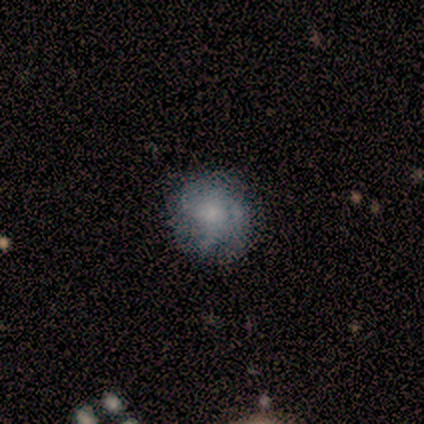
This appears to be a smooth galaxy with no disk features (40%, tied with featured or disk) that is round (100%). Merging: none (75%).